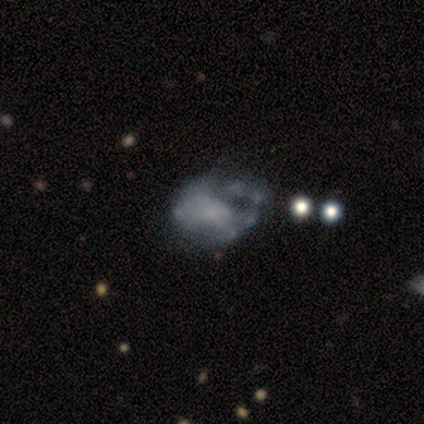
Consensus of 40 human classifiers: Smooth or featured?
  - featured or disk: 68% *
  - star or artifact: 18%
  - smooth: 15%
Edge-on disk?
  - no: 100% *
  - yes: 0%
Bar?
  - no: 85% *
  - strong: 7%
  - weak: 7%
Spiral arms?
  - no: 56% *
  - yes: 44%
Bulge size?
  - none: 70% *
  - small: 19%
  - large: 7%
  - moderate: 4%
  - dominant: 0%
Merging?
  - minor disturbance: 27% *
  - none: 21%
  - major disturbance: 21%
  - merger: 3%